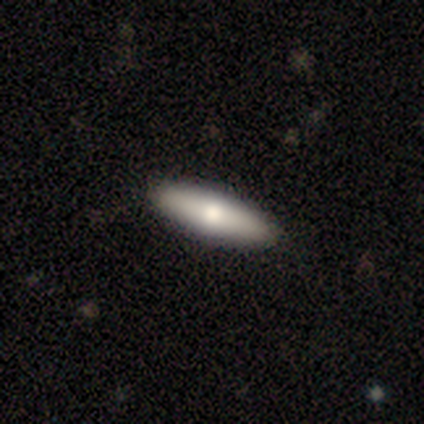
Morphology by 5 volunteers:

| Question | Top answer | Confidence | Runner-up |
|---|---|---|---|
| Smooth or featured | smooth | 100% | — |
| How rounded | in between | 40% | tied: cigar-shaped (40%) |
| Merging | none | 80% | major disturbance (20%) |